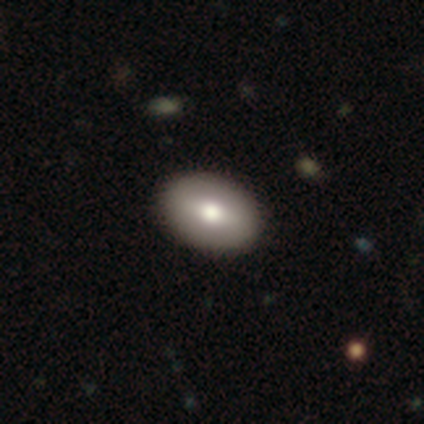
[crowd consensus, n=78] Smooth or featured? 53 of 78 (68%) said smooth. How rounded? 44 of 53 (83%) said in between. Merging? 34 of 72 (47%) said none.